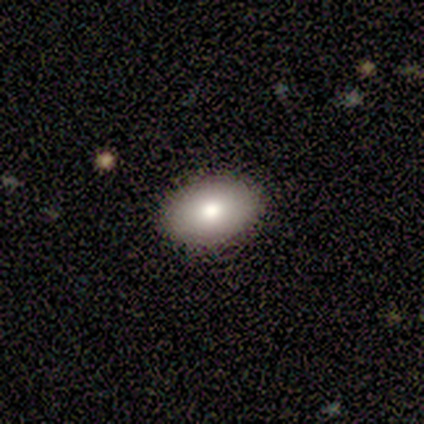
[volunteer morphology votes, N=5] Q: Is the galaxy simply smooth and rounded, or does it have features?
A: smooth — 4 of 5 (80%).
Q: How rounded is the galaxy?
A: in between — 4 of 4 (100%).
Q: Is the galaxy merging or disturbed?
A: none — 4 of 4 (100%).